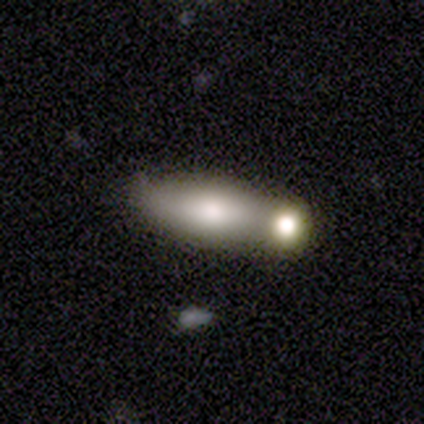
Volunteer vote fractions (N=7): Smooth or featured? smooth (71%)
How rounded? in between (100%)
Merging? none (57%)